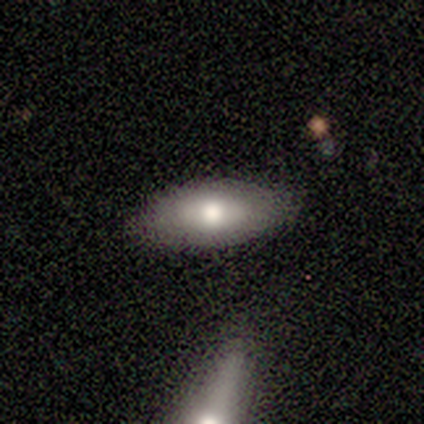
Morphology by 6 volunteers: Smooth or featured? 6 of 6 (100%) said smooth. How rounded? 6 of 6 (100%) said in between. Merging? 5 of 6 (83%) said none.